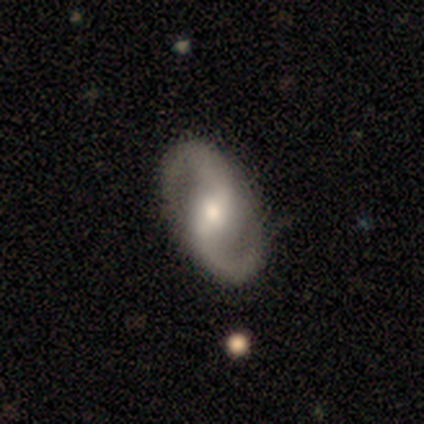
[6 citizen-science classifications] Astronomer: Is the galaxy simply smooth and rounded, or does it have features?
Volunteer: featured or disk — 100%.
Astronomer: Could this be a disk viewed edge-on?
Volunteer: no — 100%.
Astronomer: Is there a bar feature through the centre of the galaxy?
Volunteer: weak — 50% (runner-up: no, 33%).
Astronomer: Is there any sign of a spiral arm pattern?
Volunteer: yes — 100%.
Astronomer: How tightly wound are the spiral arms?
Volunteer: medium — 50% (runner-up: loose, 33%).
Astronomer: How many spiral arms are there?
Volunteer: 2 — 67%.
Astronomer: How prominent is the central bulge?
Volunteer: moderate — 50%.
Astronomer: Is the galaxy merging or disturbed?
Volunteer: none — 100%.